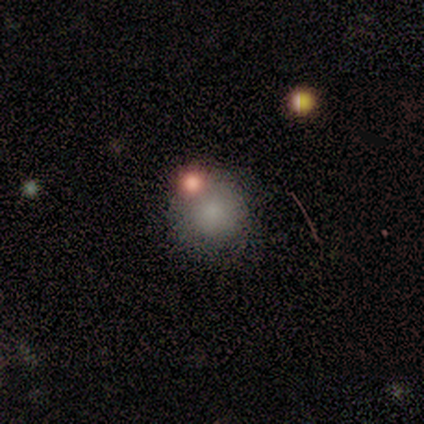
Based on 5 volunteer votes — smooth-or-featured: smooth: 80% | star or artifact: 20% | featured or disk: 0%
  how-rounded: round: 75% | in between: 25% | cigar-shaped: 0%
  merging: major disturbance: 50% | none: 25% | minor disturbance: 25% | merger: 0%